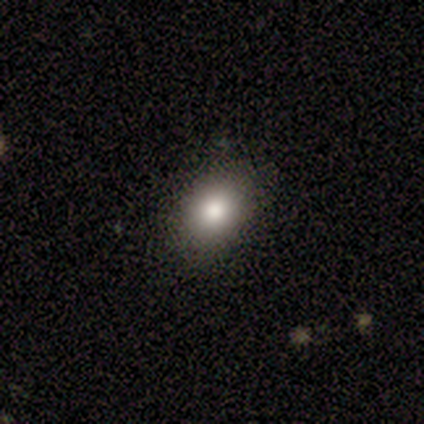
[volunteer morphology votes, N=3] smooth-or-featured: smooth: 100% | featured or disk: 0% | star or artifact: 0%
  how-rounded: round: 67% | in between: 33% | cigar-shaped: 0%
  merging: none: 100% | minor disturbance: 0% | major disturbance: 0% | merger: 0%